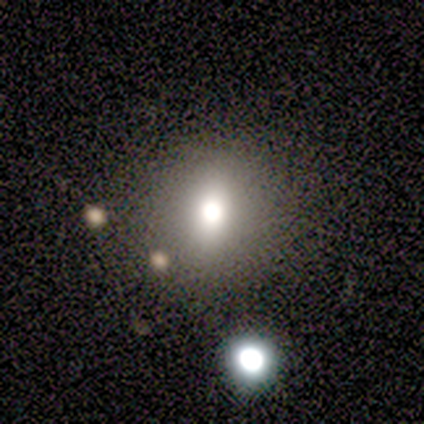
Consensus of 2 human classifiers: Q: Smooth or featured?
A: smooth (100%)
Q: How rounded?
A: round (100%)
Q: Merging?
A: none (100%)